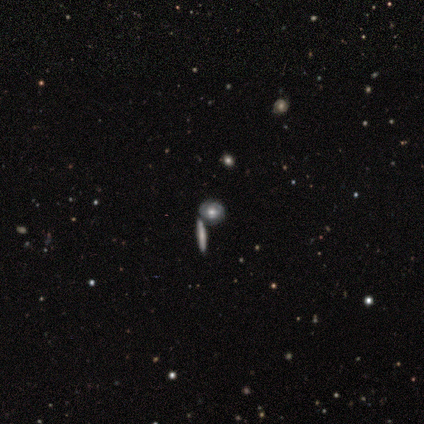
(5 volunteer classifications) Volunteers were most divided on "spiral winding" (2-way tie): tight: 50%, medium: 50%, loose: 0%. More confident: bar — no (100%); spiral arms — yes (100%); spiral arm count — can't tell (100%); bulge size — moderate (100%); merging — none (100%); edge-on disk — no (67%); smooth or featured — featured or disk (60%).